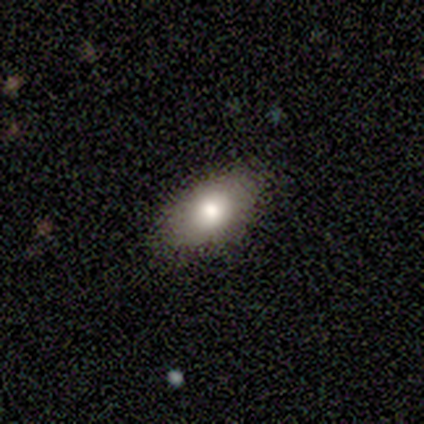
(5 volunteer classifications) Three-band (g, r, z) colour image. It shows a smooth galaxy with no disk features (100%) that is in between round and cigar-shaped (100%). Merging: none (80%).